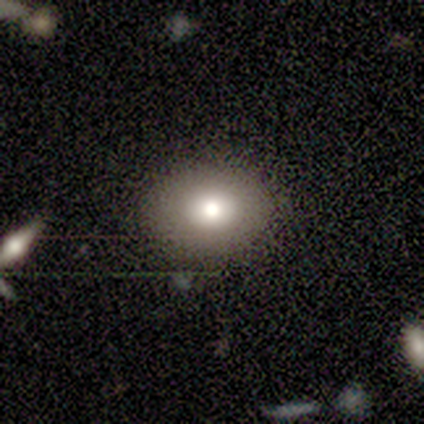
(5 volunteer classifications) smooth 80%, featured or disk 20%, star or artifact 0%. Down the decision tree: how rounded — in between (75%); merging — none (100%).